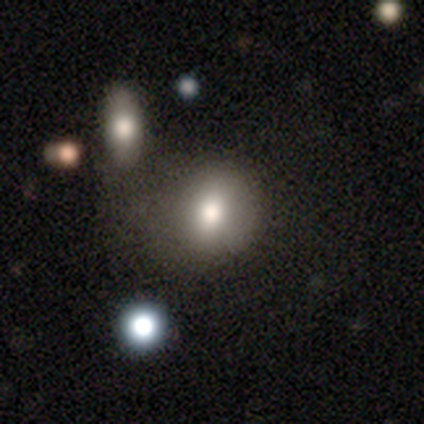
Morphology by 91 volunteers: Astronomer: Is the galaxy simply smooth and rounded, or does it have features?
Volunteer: smooth — 77%.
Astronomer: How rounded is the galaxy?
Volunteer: round — 57% (runner-up: in between, 39%).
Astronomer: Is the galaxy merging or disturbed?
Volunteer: none — 48% (runner-up: minor disturbance, 25%).